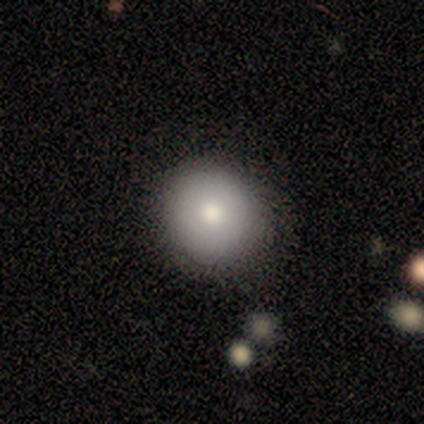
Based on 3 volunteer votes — Smooth or featured? 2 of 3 (67%) said featured or disk. Edge-on disk? 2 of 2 (100%) said no. Bar? 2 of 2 (100%) said no. Spiral arms? 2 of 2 (100%) said no. Bulge size? 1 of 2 (50%, tied with small) said moderate. Merging? 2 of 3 (67%) said none.